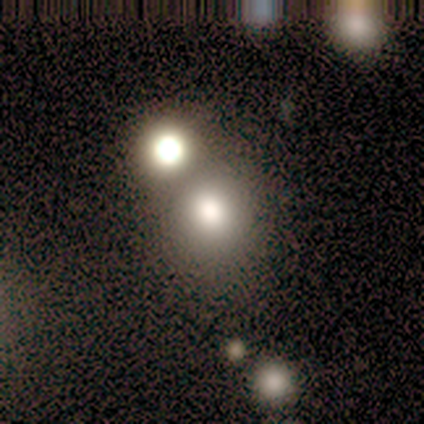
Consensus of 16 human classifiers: Overall: smooth (75%). How rounded: round (100%). Merging: none (57%; merger 29%).